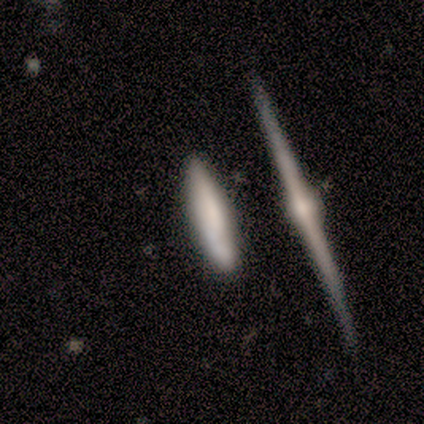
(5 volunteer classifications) Overall: featured or disk (80%). Edge-on disk: yes (100%). Edge-on bulge: none (50%, tied with rounded). Merging: none (80%).